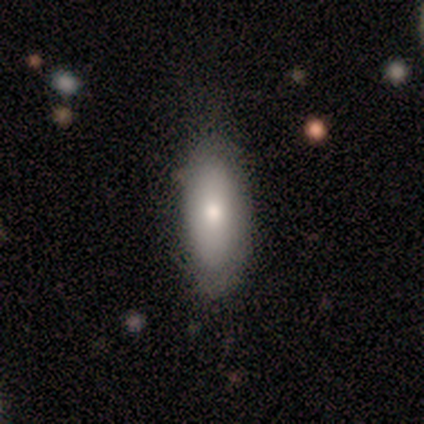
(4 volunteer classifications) A smooth galaxy with no disk features (100%) that is in between round and cigar-shaped (75%).

Vote fractions:
- Smooth or featured? smooth: 100% / featured or disk: 0% / star or artifact: 0%
- How rounded? in between: 75% / cigar-shaped: 25% / round: 0%
- Merging? none: 75% / minor disturbance: 25% / major disturbance: 0% / merger: 0%